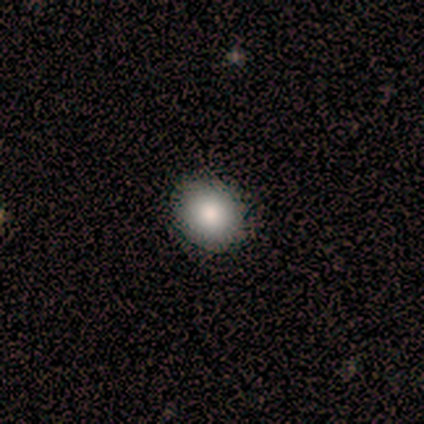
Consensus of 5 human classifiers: smooth-or-featured: smooth: 100% | featured or disk: 0% | star or artifact: 0%
  how-rounded: round: 80% | in between: 20% | cigar-shaped: 0%
  merging: none: 60% | minor disturbance: 40% | major disturbance: 0% | merger: 0%